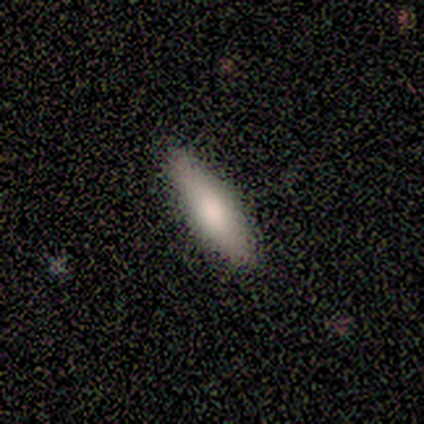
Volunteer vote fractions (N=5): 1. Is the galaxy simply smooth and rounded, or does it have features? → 100% smooth, 0% featured or disk, 0% star or artifact.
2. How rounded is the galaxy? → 60% in between, 40% cigar-shaped, 0% round.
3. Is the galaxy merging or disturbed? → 100% none, 0% minor disturbance, 0% major disturbance, 0% merger.